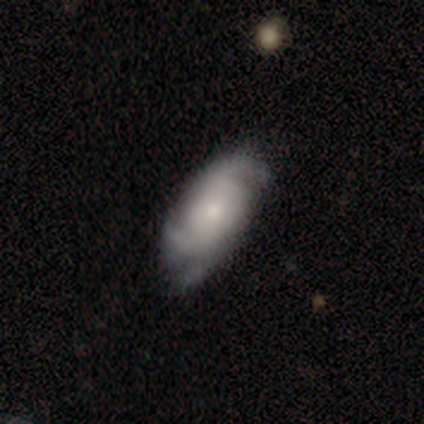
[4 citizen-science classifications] A featured or disk galaxy (75%) with no bar (67%), 2 (100%) tight (33%, tied with medium and loose) spiral arms (100%) and a small central bulge (67%).

Vote fractions:
- Smooth or featured? featured or disk: 75% / smooth: 25% / star or artifact: 0%
- Edge-on disk? no: 100% / yes: 0%
- Bar? no: 67% / weak: 33% / strong: 0%
- Spiral arms? yes: 100% / no: 0%
- Spiral winding? tight: 33% (tied) / medium: 33% (tied) / loose: 33% (tied)
- Spiral arm count? 2: 100% / 1: 0% / 3: 0% / 4: 0% / more than 4: 0% / can't tell: 0%
- Bulge size? small: 67% / moderate: 33% / dominant: 0% / large: 0% / none: 0%
- Merging? none: 75% / minor disturbance: 25% / major disturbance: 0% / merger: 0%